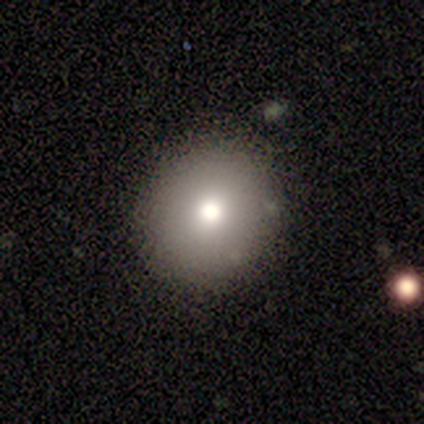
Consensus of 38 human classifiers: Smooth or featured: smooth — 74% (star or artifact — 16%)
How rounded: round — 96% (in between — 4%)
Merging: none — 97% (minor disturbance — 3%)